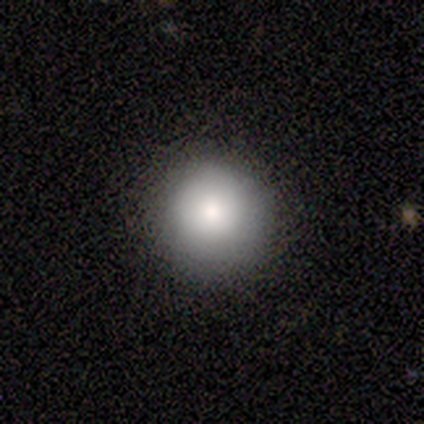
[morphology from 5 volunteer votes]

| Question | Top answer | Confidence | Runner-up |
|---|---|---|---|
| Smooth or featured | smooth | 80% | star or artifact (20%) |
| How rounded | round | 100% | — |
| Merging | none | 100% | — |